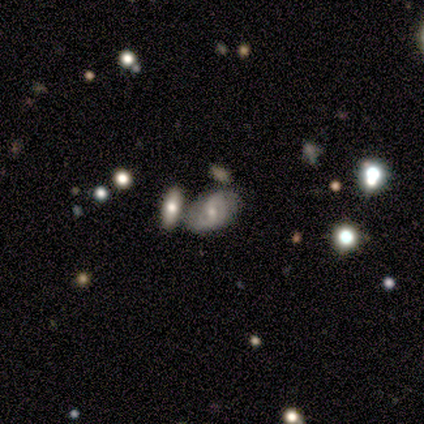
smooth-or-featured: featured or disk: 60% | smooth: 32% | star or artifact: 8%
  disk-edge-on: no: 100% | yes: 0%
    bar: no: 50% | weak: 38% | strong: 12%
    has-spiral-arms: yes: 88% | no: 12%
      spiral-winding: medium: 48% | loose: 29% | tight: 24%
      spiral-arm-count: 2: 52% | can't tell: 29% | 3: 10% | 1: 5% | 4: 5% | more than 4: 0%
    bulge-size: moderate: 50% | small: 46% | none: 4% | dominant: 0% | large: 0%
  merging: none: 46% | minor disturbance: 27% | merger: 27% | major disturbance: 0%